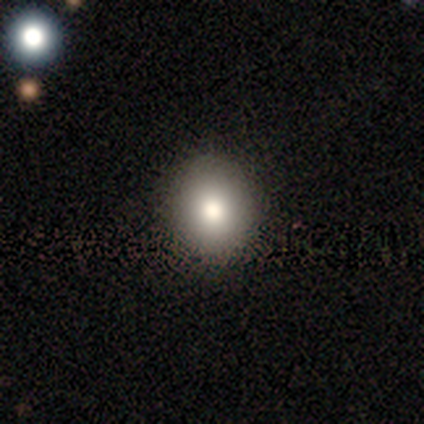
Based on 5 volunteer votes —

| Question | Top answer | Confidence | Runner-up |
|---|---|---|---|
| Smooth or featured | smooth | 80% | star or artifact (20%) |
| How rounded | round | 50% | tied: in between (50%) |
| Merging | none | 50% | tied: minor disturbance (50%) |